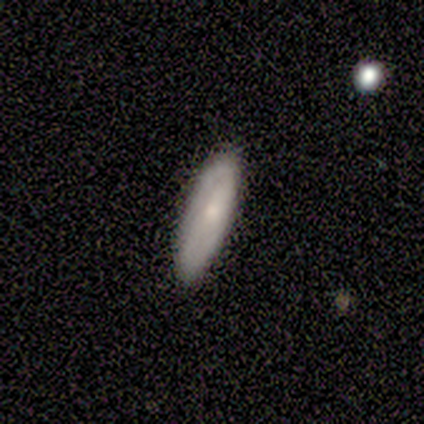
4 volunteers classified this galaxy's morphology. Q: Smooth or featured?
A: featured or disk (75%); runner-up: star or artifact (25%)
Q: Edge-on disk?
A: yes (67%); runner-up: no (33%)
Q: Edge-on bulge?
A: none (50%); tied with: rounded (50%)
Q: Merging?
A: none (100%)